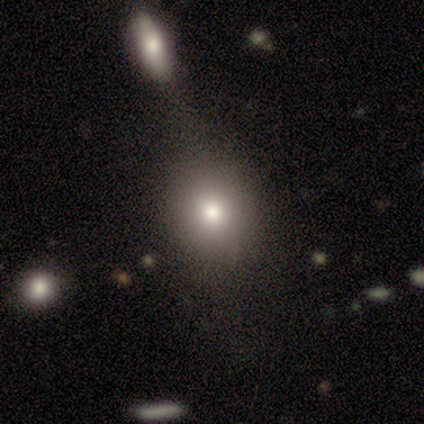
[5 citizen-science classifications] Smooth or featured?
  - smooth: 40% * (tied)
  - featured or disk: 40% * (tied)
  - star or artifact: 20%
How rounded?
  - round: 100% *
  - in between: 0%
  - cigar-shaped: 0%
Merging?
  - minor disturbance: 50% *
  - none: 25%
  - major disturbance: 25%
  - merger: 0%